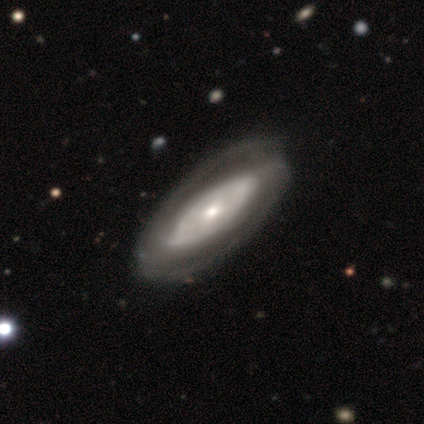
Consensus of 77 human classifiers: This is clearly a featured or disk galaxy (83%). It is clearly not viewed edge-on (92%). Bar: likely no (61%). Spiral arm pattern: likely yes (76%). Spiral arm count: possibly 2 (58%). Spiral winding: possibly tight (58%). Central bulge: possibly moderate (46%). Merging: likely none (60%).